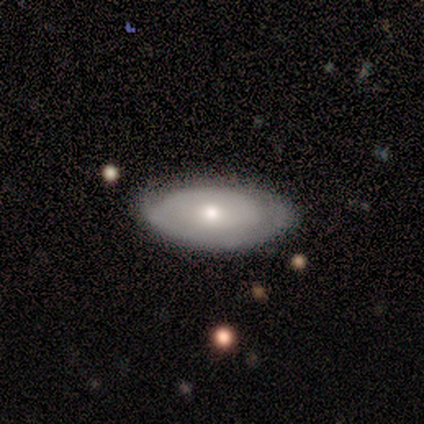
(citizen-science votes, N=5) Smooth or featured?
  - smooth: 60% *
  - featured or disk: 40%
  - star or artifact: 0%
How rounded?
  - in between: 100% *
  - round: 0%
  - cigar-shaped: 0%
Merging?
  - minor disturbance: 60% *
  - none: 40%
  - major disturbance: 0%
  - merger: 0%